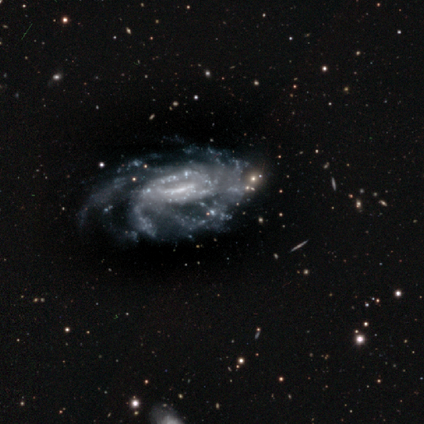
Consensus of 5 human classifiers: Q: Smooth or featured?
A: featured or disk (100%)
Q: Edge-on disk?
A: no (100%)
Q: Bar?
A: weak (60%); runner-up: strong (40%)
Q: Spiral arms?
A: yes (100%)
Q: Spiral winding?
A: tight (60%); runner-up: medium (40%)
Q: Spiral arm count?
A: more than 4 (100%)
Q: Bulge size?
A: small (40%); runner-up: dominant (20%)
Q: Merging?
A: minor disturbance (60%); runner-up: none (40%)